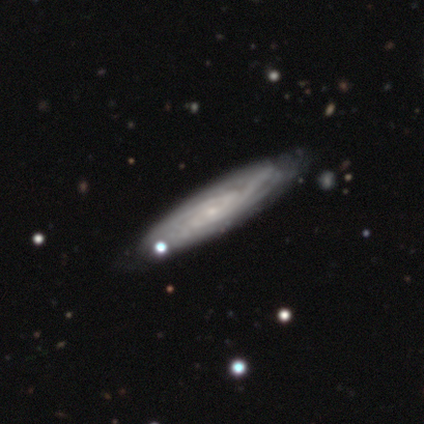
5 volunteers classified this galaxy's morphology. smooth_or_featured: featured or disk (p=0.80) [alt: star or artifact p=0.20]
disk_edge_on: yes (p=0.50) [tied with: no p=0.50]
edge_on_bulge: none (p=0.50) [tied with: rounded p=0.50]
merging: none (p=0.75) [alt: minor disturbance p=0.25]